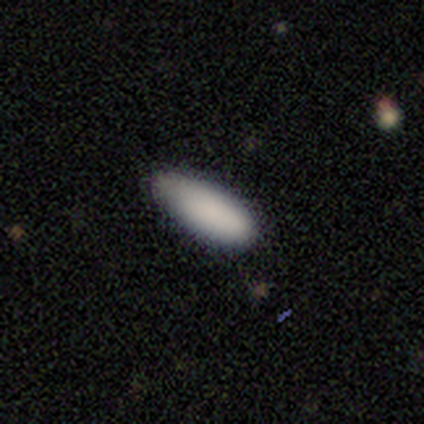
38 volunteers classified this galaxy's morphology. Volunteers were most divided on "how rounded": in between: 68%, cigar-shaped: 32%, round: 0%. More confident: smooth or featured — smooth (100%); merging — none (68%).